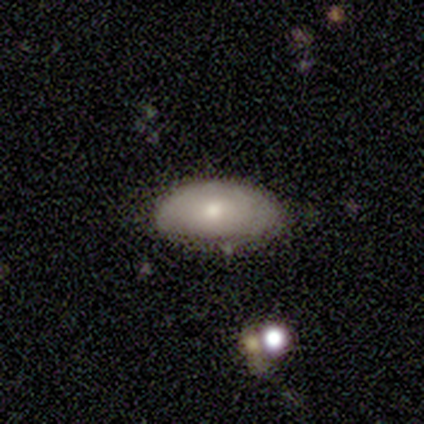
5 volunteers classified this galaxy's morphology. Smooth or featured? 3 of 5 (60%) said smooth. How rounded? 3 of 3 (100%) said in between. Merging? 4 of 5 (80%) said none.